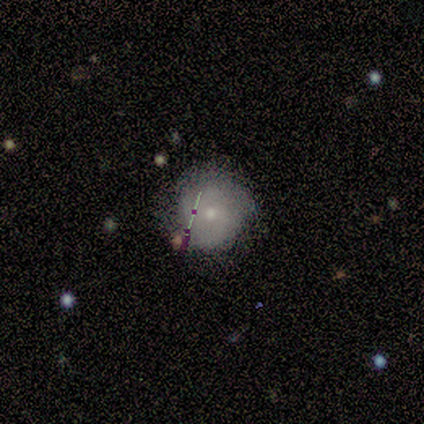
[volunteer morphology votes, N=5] Smooth or featured? 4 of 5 (80%) said smooth. How rounded? 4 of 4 (100%) said round. Merging? 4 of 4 (100%) said none.